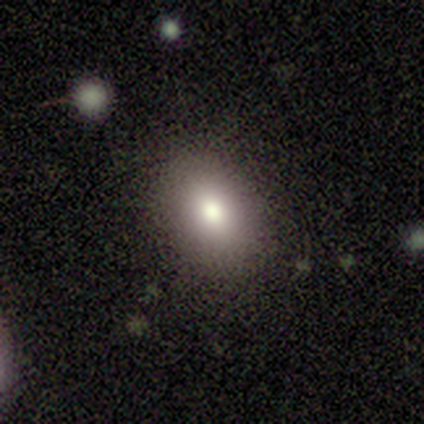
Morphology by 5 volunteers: Q: Smooth or featured?
A: smooth (100%)
Q: How rounded?
A: in between (80%); runner-up: cigar-shaped (20%)
Q: Merging?
A: none (100%)